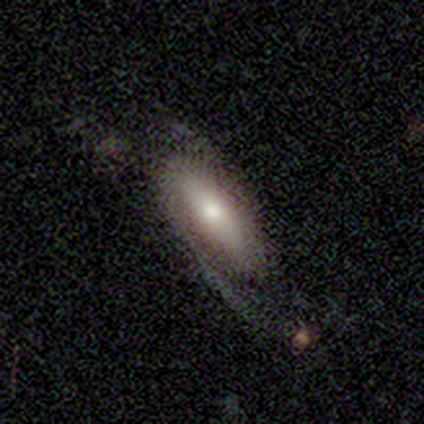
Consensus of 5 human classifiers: Smooth or featured? featured or disk (60%)
Edge-on disk? no (100%)
Bar? no (100%)
Spiral arms? yes (100%)
Spiral winding? loose (67%)
Spiral arm count? 2 (100%)
Bulge size? moderate (67%)
Merging? none (60%)